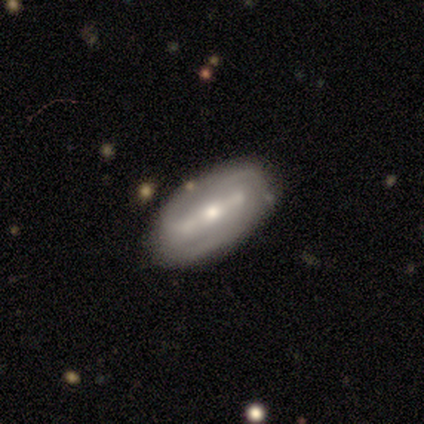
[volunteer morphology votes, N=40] Q: Smooth or featured?
A: featured or disk (85%); runner-up: smooth (8%)
Q: Edge-on disk?
A: no (82%); runner-up: yes (18%)
Q: Bar?
A: strong (64%); runner-up: weak (29%)
Q: Spiral arms?
A: yes (71%); runner-up: no (29%)
Q: Spiral winding?
A: medium (50%); runner-up: tight (45%)
Q: Spiral arm count?
A: 2 (60%); runner-up: can't tell (30%)
Q: Bulge size?
A: moderate (46%); tied with: small (46%)
Q: Merging?
A: none (78%); runner-up: minor disturbance (16%)